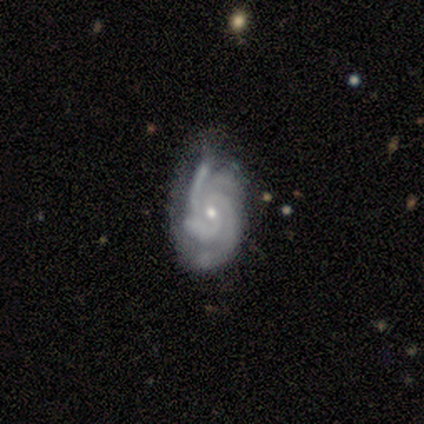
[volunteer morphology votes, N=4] A featured or disk galaxy (100%) with a weak bar (50%, tied with no), 2 (25%, tied with 3, more than 4 and can't tell) tight (50%, tied with medium) spiral arms (100%) and a small central bulge (75%).

Vote fractions:
- Smooth or featured? featured or disk: 100% / smooth: 0% / star or artifact: 0%
- Edge-on disk? no: 100% / yes: 0%
- Bar? weak: 50% (tied) / no: 50% (tied) / strong: 0%
- Spiral arms? yes: 100% / no: 0%
- Spiral winding? tight: 50% (tied) / medium: 50% (tied) / loose: 0%
- Spiral arm count? 2: 25% (tied) / 3: 25% (tied) / more than 4: 25% (tied) / can't tell: 25% (tied) / 1: 0% / 4: 0%
- Bulge size? small: 75% / moderate: 25% / dominant: 0% / large: 0% / none: 0%
- Merging? none: 75% / minor disturbance: 25% / major disturbance: 0% / merger: 0%